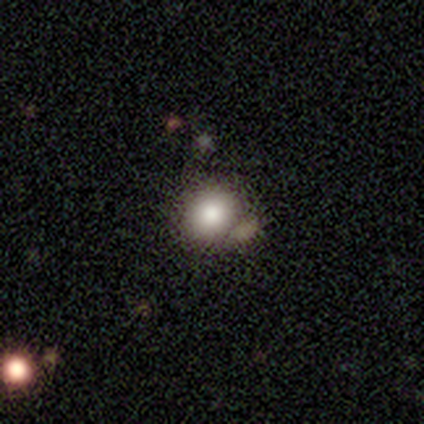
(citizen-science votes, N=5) Smooth or featured? 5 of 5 (100%) said smooth. How rounded? 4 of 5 (80%) said round. Merging? 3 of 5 (60%) said none.